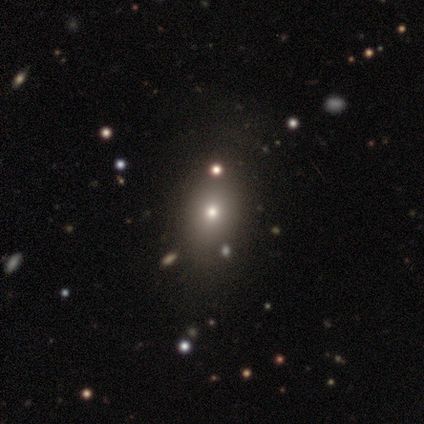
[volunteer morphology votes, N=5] Overall: smooth (60%; featured or disk 20%). How rounded: in between (67%; round 33%). Merging: none (100%).